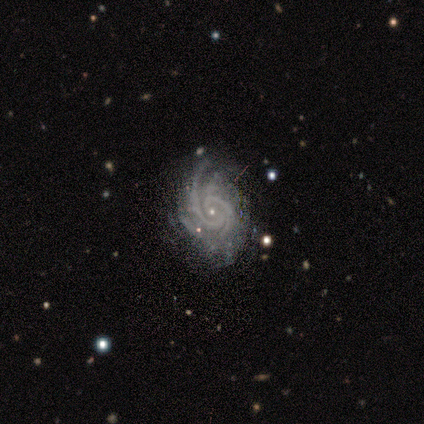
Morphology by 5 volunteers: Smooth or featured? featured or disk (100%)
Edge-on disk? no (100%)
Bar? no (80%)
Spiral arms? yes (100%)
Spiral winding? tight (60%)
Spiral arm count? 2 (60%)
Bulge size? small (100%)
Merging? none (60%)